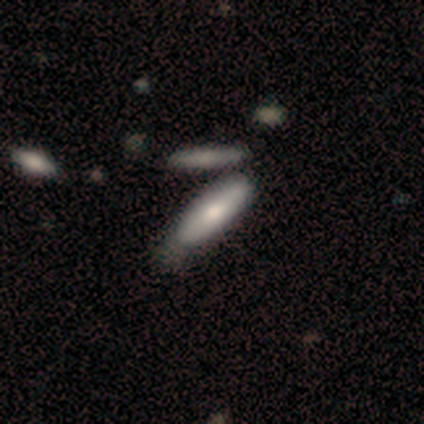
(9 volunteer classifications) Q: Smooth or featured?
A: smooth (67%); runner-up: featured or disk (33%)
Q: How rounded?
A: cigar-shaped (67%); runner-up: in between (33%)
Q: Merging?
A: none (67%); runner-up: minor disturbance (22%)